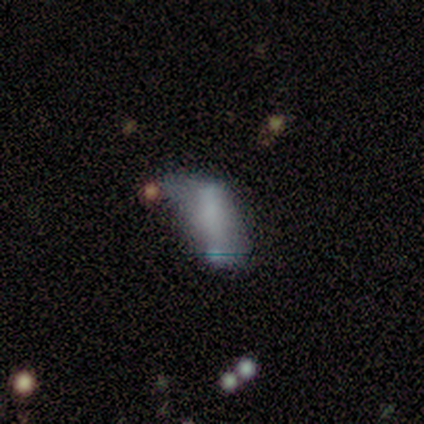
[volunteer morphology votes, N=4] Volunteers were most divided on "smooth or featured" (2-way tie): smooth: 50%, featured or disk: 50%, star or artifact: 0%. More confident: how rounded — in between (100%); merging — major disturbance (50%).